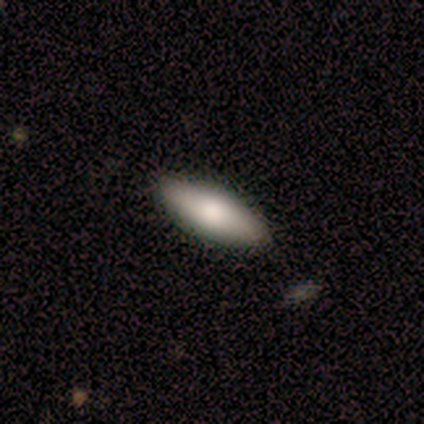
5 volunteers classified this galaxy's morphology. A smooth galaxy with no disk features (100%) that is in between round and cigar-shaped (60%).

Vote fractions:
- Smooth or featured? smooth: 100% / featured or disk: 0% / star or artifact: 0%
- How rounded? in between: 60% / cigar-shaped: 40% / round: 0%
- Merging? none: 100% / minor disturbance: 0% / major disturbance: 0% / merger: 0%